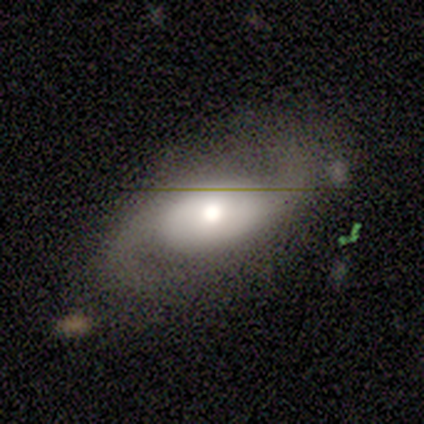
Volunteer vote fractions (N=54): Overall: featured or disk (85%). Edge-on disk: no (93%). Bar: no (77%). Spiral arms: yes (88%). Spiral arm count: 2 (100%). Spiral winding: loose (55%; medium 32%). Bulge size: moderate (63%; large 33%). Merging: none (62%; minor disturbance 23%).